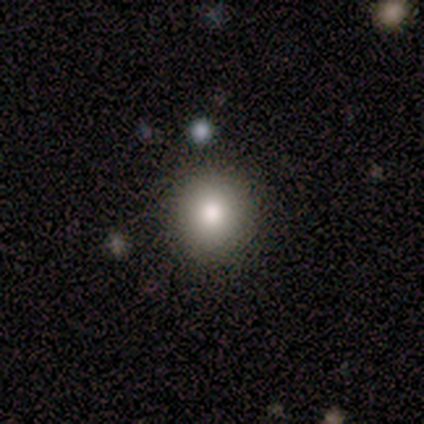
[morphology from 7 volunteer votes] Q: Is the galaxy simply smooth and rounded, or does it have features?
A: smooth — 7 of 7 (100%).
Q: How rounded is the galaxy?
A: round — 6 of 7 (86%).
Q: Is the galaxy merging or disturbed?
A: none — 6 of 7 (86%).